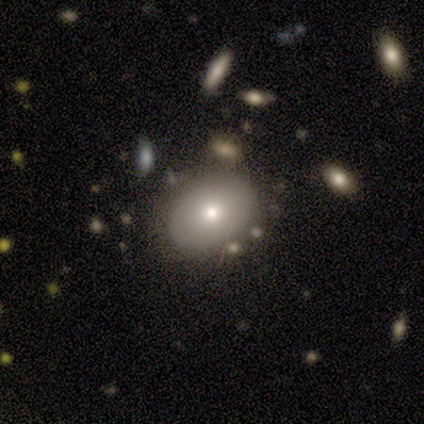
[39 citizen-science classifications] Morphology: type=smooth (85%); roundness=in between (64%); merging=none (82%).